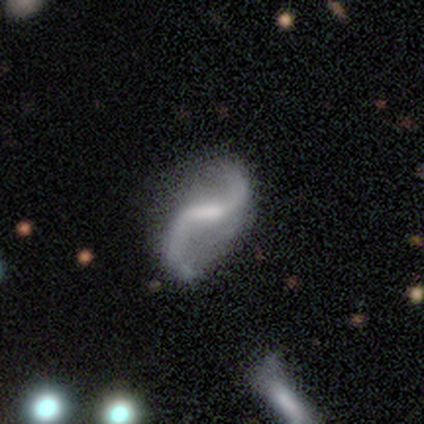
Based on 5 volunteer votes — Smooth or featured? 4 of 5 (80%) said featured or disk. Edge-on disk? 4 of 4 (100%) said no. Bar? 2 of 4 (50%, tied with no) said weak. Spiral arms? 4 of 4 (100%) said yes. Spiral winding? 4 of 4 (100%) said loose. Spiral arm count? 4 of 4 (100%) said 2. Bulge size? 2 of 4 (50%) said small. Merging? 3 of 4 (75%) said none.